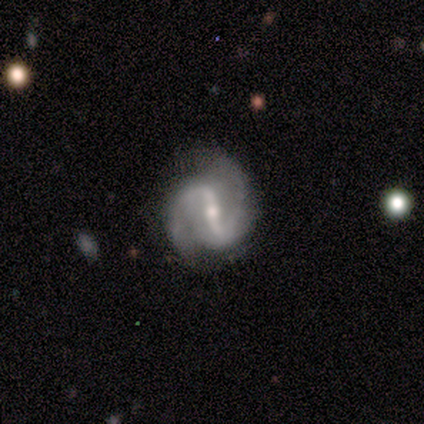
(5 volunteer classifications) Smooth or featured?
  - featured or disk: 100% *
  - smooth: 0%
  - star or artifact: 0%
Edge-on disk?
  - no: 100% *
  - yes: 0%
Bar?
  - strong: 60% *
  - weak: 20%
  - no: 20%
Spiral arms?
  - yes: 100% *
  - no: 0%
Spiral winding?
  - loose: 60% *
  - medium: 40%
  - tight: 0%
Spiral arm count?
  - 2: 100% *
  - 1: 0%
  - 3: 0%
  - 4: 0%
  - more than 4: 0%
  - can't tell: 0%
Bulge size?
  - moderate: 100% *
  - dominant: 0%
  - large: 0%
  - small: 0%
  - none: 0%
Merging?
  - none: 100% *
  - minor disturbance: 0%
  - major disturbance: 0%
  - merger: 0%